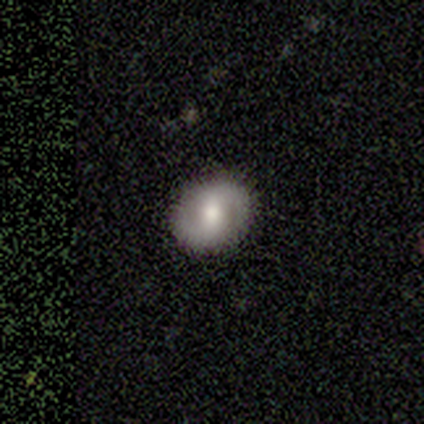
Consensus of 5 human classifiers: This appears to be a featured or disk galaxy (80%) with no bar (75%), 2 (100%) tight (33%, tied with medium and loose) spiral arms (75%) and a moderate central bulge (100%). Merging: none (100%).